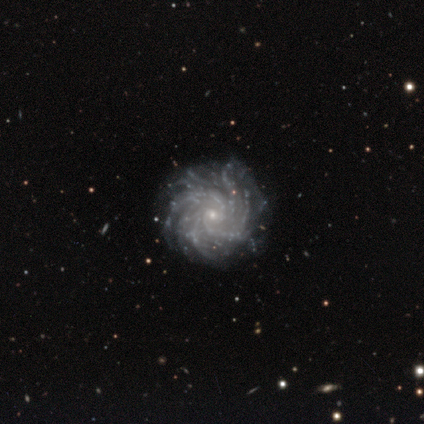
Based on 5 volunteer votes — Smooth or featured? featured or disk (100%)
Edge-on disk? no (100%)
Bar? no (60%)
Spiral arms? yes (100%)
Spiral winding? tight (80%)
Spiral arm count? more than 4 (40%, tied with can't tell)
Bulge size? small (100%)
Merging? none (80%)